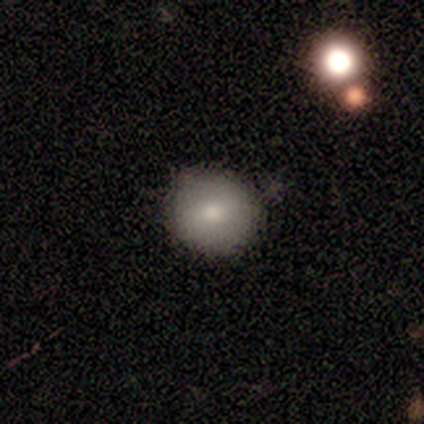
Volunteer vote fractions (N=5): smooth-or-featured: smooth: 60% | star or artifact: 40% | featured or disk: 0%
  how-rounded: round: 100% | in between: 0% | cigar-shaped: 0%
  merging: none: 100% | minor disturbance: 0% | major disturbance: 0% | merger: 0%